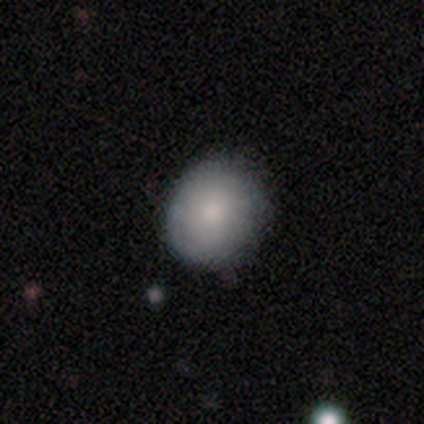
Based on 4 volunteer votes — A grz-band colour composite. It shows a smooth galaxy with no disk features (75%) that is in between round and cigar-shaped (67%). Merging: none (67%).